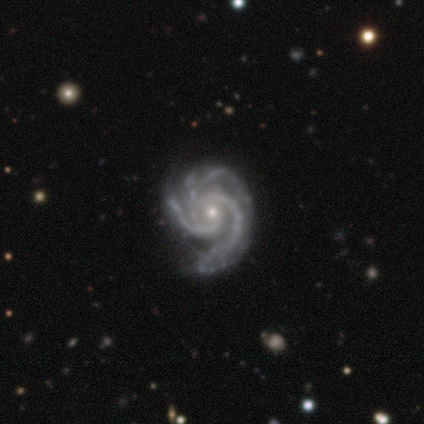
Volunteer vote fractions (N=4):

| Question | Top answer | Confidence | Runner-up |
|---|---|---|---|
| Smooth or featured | featured or disk | 100% | — |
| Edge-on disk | no | 75% | yes (25%) |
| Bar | no | 67% | weak (33%) |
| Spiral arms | yes | 100% | — |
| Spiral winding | medium | 67% | tight (33%) |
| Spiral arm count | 3 | 67% | 4 (33%) |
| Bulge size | small | 100% | — |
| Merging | none | 75% | major disturbance (25%) |